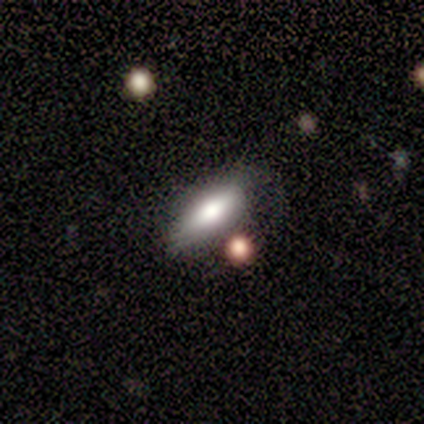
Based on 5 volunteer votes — Smooth or featured? smooth (80%)
How rounded? in between (75%)
Merging? none (100%)